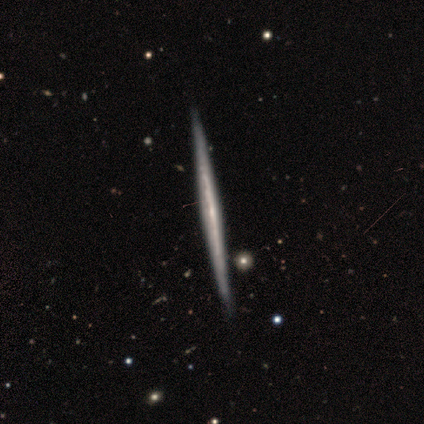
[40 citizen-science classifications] featured or disk 92%, smooth 8%, star or artifact 0%. Down the decision tree: edge-on disk — yes (100%); edge-on bulge — none (73%); merging — none (98%).